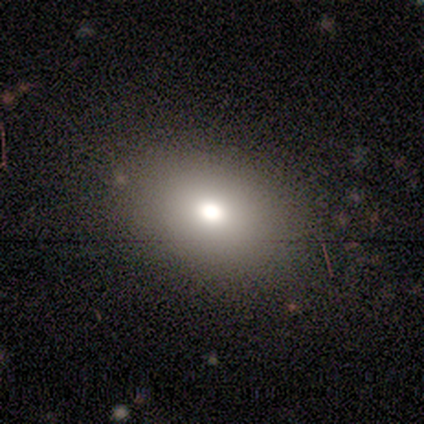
A smooth galaxy with no disk features (50%) that is in between round and cigar-shaped (67%). Merging: none (100%).